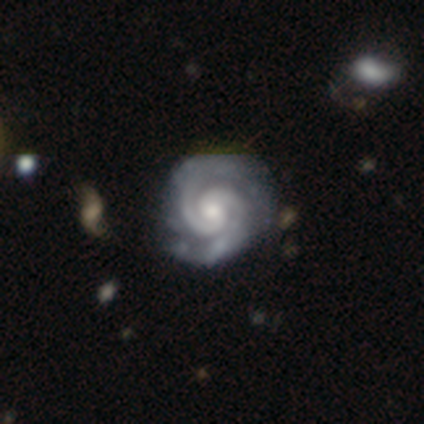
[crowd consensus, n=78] Smooth or featured? featured or disk (97%)
Edge-on disk? no (99%)
Bar? no (63%)
Spiral arms? yes (99%)
Spiral winding? tight (80%)
Spiral arm count? 2 (88%)
Bulge size? moderate (52%)
Merging? none (40%)